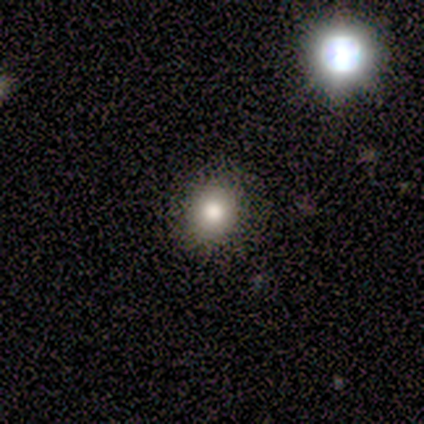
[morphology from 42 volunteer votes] Smooth or featured? smooth (71%)
How rounded? round (80%)
Merging? none (89%)